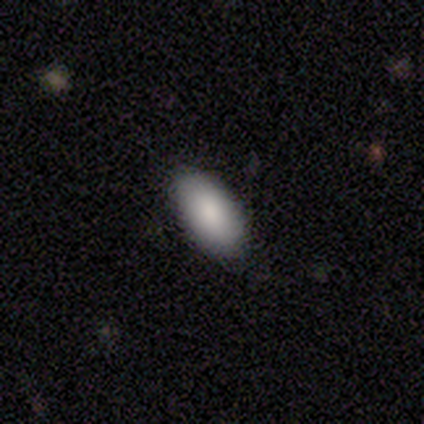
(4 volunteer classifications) Smooth or featured?
  - smooth: 100% *
  - featured or disk: 0%
  - star or artifact: 0%
How rounded?
  - in between: 100% *
  - round: 0%
  - cigar-shaped: 0%
Merging?
  - none: 100% *
  - minor disturbance: 0%
  - major disturbance: 0%
  - merger: 0%